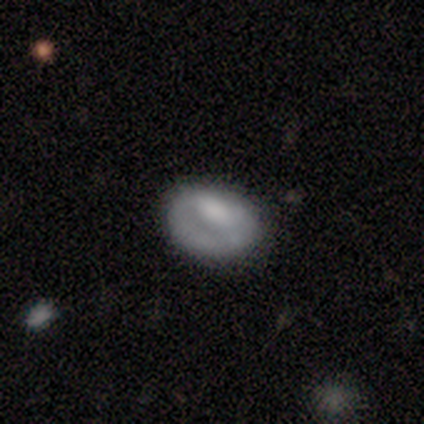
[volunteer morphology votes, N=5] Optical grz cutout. It shows a smooth galaxy with no disk features (80%) that is in between round and cigar-shaped (75%). Merging: none (80%).